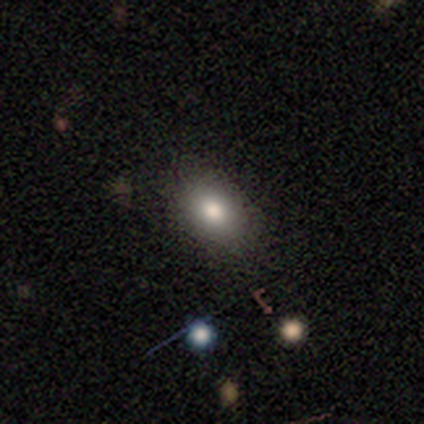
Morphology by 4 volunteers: Smooth or featured: smooth — 100%
How rounded: in between — 75% (round — 25%)
Merging: none — 100%